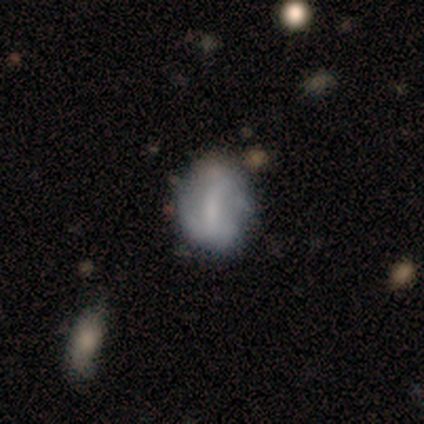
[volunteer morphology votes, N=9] Smooth or featured? smooth (44%, tied with featured or disk)
How rounded? in between (75%)
Merging? none (62%)